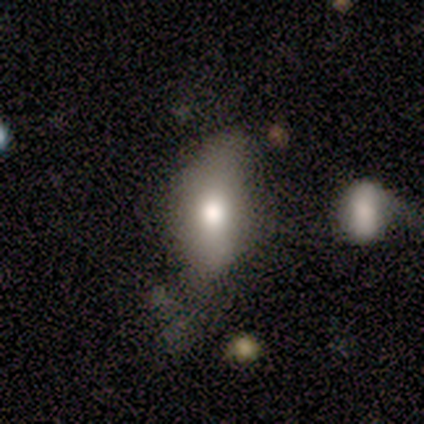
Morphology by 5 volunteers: This is likely a smooth galaxy (60%). How rounded: clearly in between (100%). Merging: marginally none (40%, tied with major disturbance).